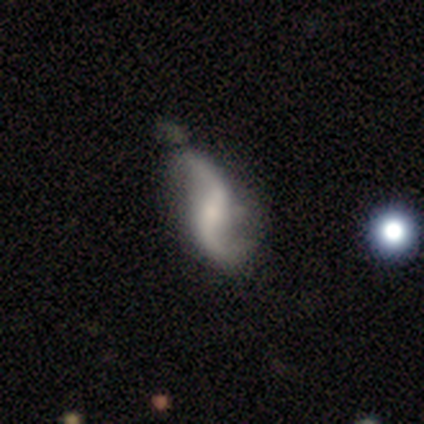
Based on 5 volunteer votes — Overall: featured or disk (100%). Edge-on disk: no (100%). Bar: strong (40%, tied with weak). Spiral arms: yes (100%). Spiral arm count: 2 (100%). Spiral winding: loose (80%). Bulge size: small (60%; dominant 20%). Merging: none (60%; minor disturbance 20%).